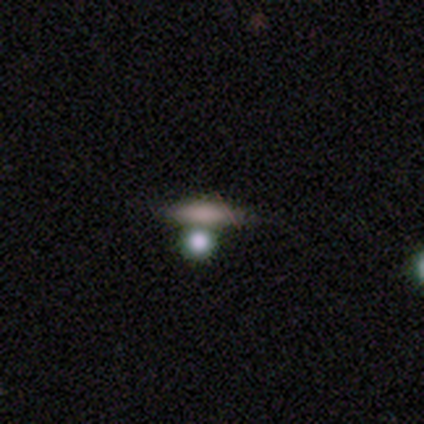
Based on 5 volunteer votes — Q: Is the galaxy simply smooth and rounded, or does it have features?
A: smooth — 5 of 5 (100%).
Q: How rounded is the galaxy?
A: cigar-shaped — 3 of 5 (60%).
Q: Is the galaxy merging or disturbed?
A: none — 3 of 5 (60%).